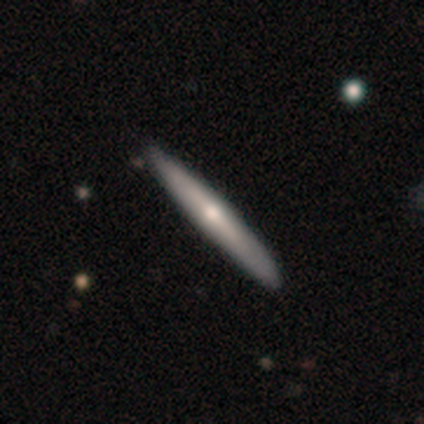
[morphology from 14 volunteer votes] type=smooth (50%, tied with featured or disk); roundness=cigar-shaped (86%); merging=none (79%).